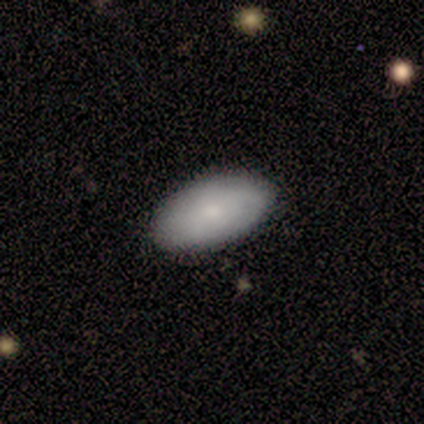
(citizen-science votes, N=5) A smooth galaxy with no disk features (80%) that is in between round and cigar-shaped (100%). Merging: none (40%, tied with minor disturbance).